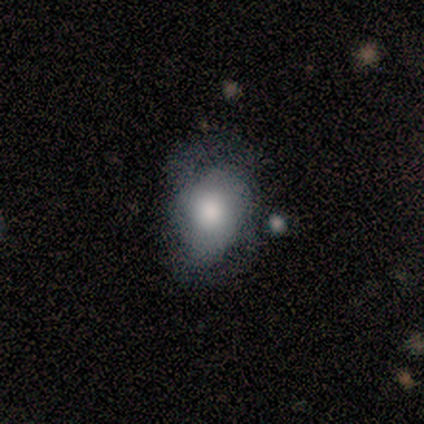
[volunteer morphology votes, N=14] smooth 43% (tied), featured or disk 43% (tied), star or artifact 14%. Down the decision tree: how rounded — in between (67%); merging — none (42%).